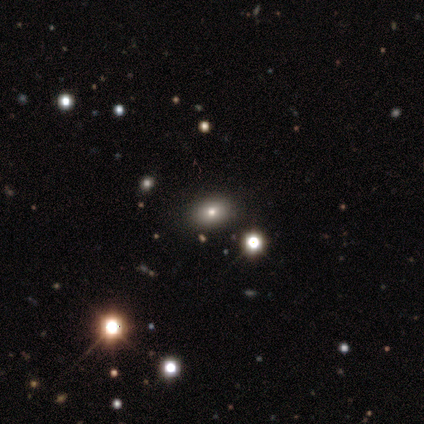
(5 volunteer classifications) smooth_or_featured: smooth (p=0.40) [tied with: featured or disk p=0.40]
how_rounded: in between (p=1.00)
merging: none (p=0.75) [alt: minor disturbance p=0.25]